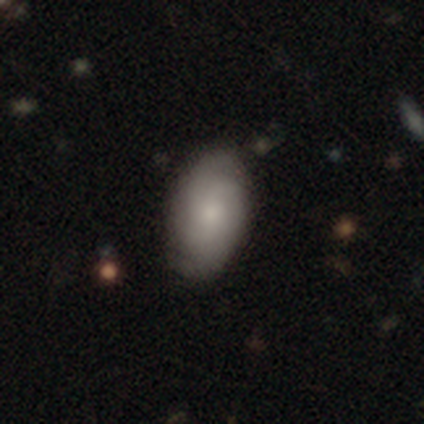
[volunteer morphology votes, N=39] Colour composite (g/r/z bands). It shows a featured or disk galaxy (51%) with no bar (85%), 2 (47%) medium (53%) spiral arms (75%) and a moderate central bulge (50%). Merging: none (82%).